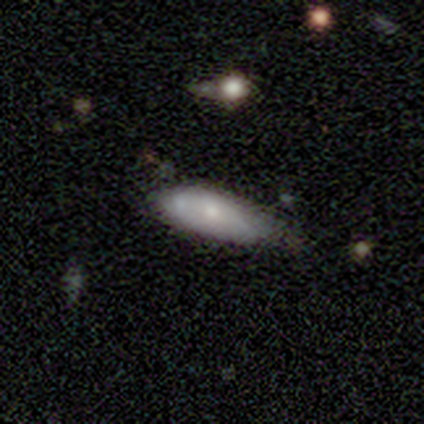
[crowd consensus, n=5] smooth-or-featured: smooth: 100% | featured or disk: 0% | star or artifact: 0%
  how-rounded: in between: 80% | cigar-shaped: 20% | round: 0%
  merging: minor disturbance: 80% | none: 20% | major disturbance: 0% | merger: 0%